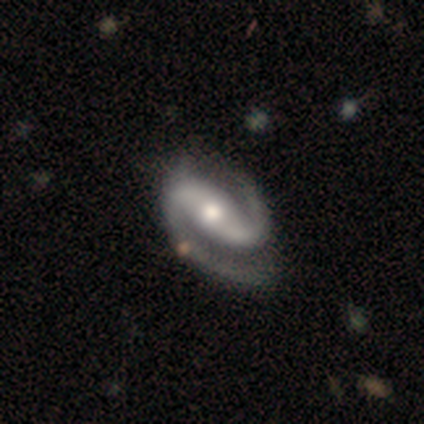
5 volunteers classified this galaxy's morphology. Q: Smooth or featured?
A: featured or disk (100%)
Q: Edge-on disk?
A: no (100%)
Q: Bar?
A: weak (80%); runner-up: strong (20%)
Q: Spiral arms?
A: yes (100%)
Q: Spiral winding?
A: medium (60%); runner-up: tight (40%)
Q: Spiral arm count?
A: 2 (100%)
Q: Bulge size?
A: moderate (100%)
Q: Merging?
A: none (100%)